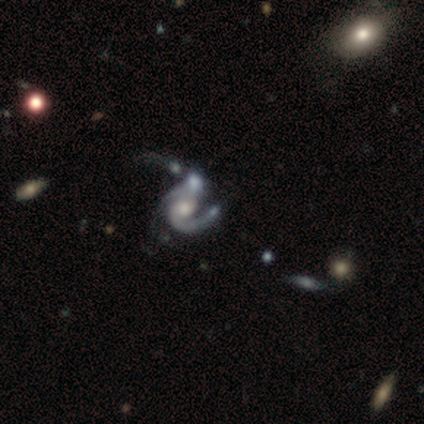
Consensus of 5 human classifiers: This appears to be a featured or disk galaxy (80%) with no bar (75%), 2 (50%) medium (50%) spiral arms (100%) and a moderate central bulge (75%). Merging: major disturbance (60%).